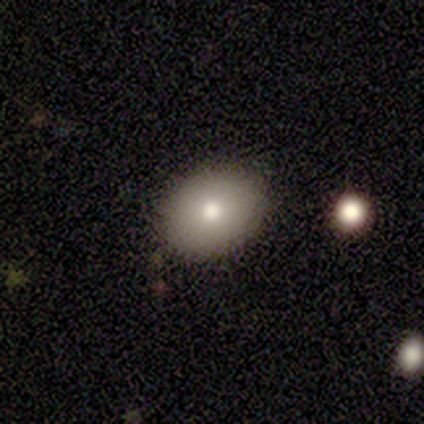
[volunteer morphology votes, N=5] smooth-or-featured: smooth: 60% | featured or disk: 40% | star or artifact: 0%
  how-rounded: in between: 100% | round: 0% | cigar-shaped: 0%
  merging: none: 100% | minor disturbance: 0% | major disturbance: 0% | merger: 0%